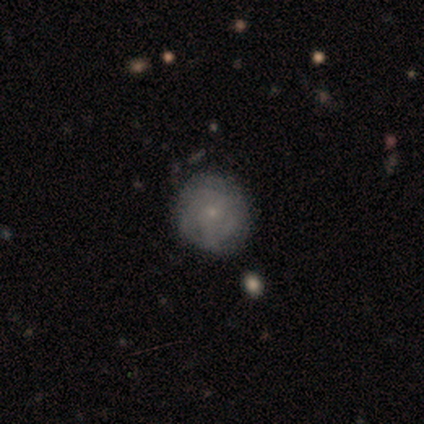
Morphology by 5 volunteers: A featured or disk galaxy (60%) with no bar (100%), no spiral arms (67%) and a small central bulge (100%).

Vote fractions:
- Smooth or featured? featured or disk: 60% / smooth: 20% / star or artifact: 20%
- Edge-on disk? no: 100% / yes: 0%
- Bar? no: 100% / strong: 0% / weak: 0%
- Spiral arms? no: 67% / yes: 33%
- Bulge size? small: 100% / dominant: 0% / large: 0% / moderate: 0% / none: 0%
- Merging? none: 100% / minor disturbance: 0% / major disturbance: 0% / merger: 0%